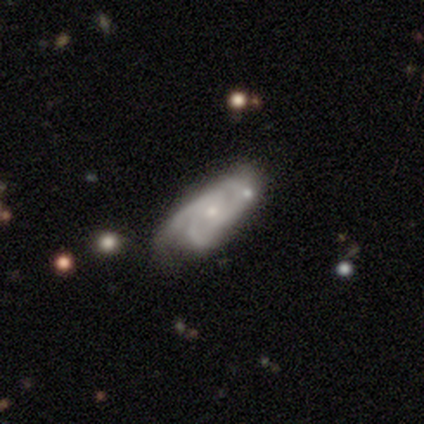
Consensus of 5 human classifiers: featured or disk 100%, smooth 0%, star or artifact 0%. Down the decision tree: edge-on disk — no (100%); bar — no (100%); spiral arms — yes (80%); spiral arm count — 3 (100%); spiral winding — medium (100%); bulge size — small (80%); merging — none (40%, tied with minor disturbance).